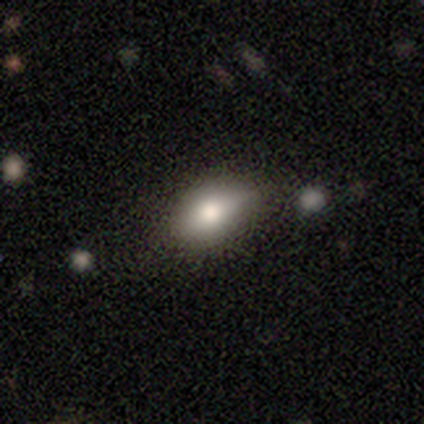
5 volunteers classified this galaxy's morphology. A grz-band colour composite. It shows a smooth galaxy with no disk features (80%) that is in between round and cigar-shaped (100%). Merging: none (60%).